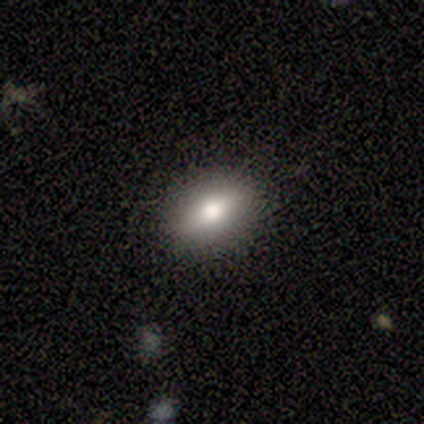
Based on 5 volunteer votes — Smooth or featured: smooth — 60% (featured or disk — 40%)
How rounded: in between — 100%
Merging: none — 80% (minor disturbance — 20%)